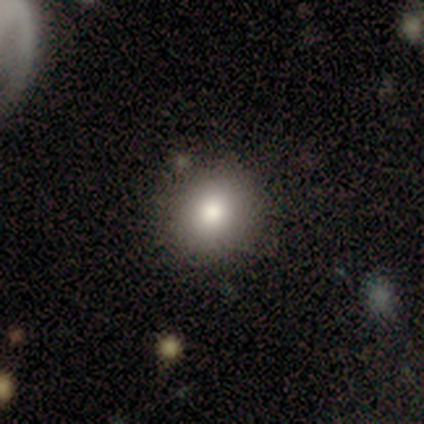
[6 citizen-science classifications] Smooth or featured: smooth — 67% (star or artifact — 33%)
How rounded: round — 75% (in between — 25%)
Merging: none — 75% (minor disturbance — 25%)